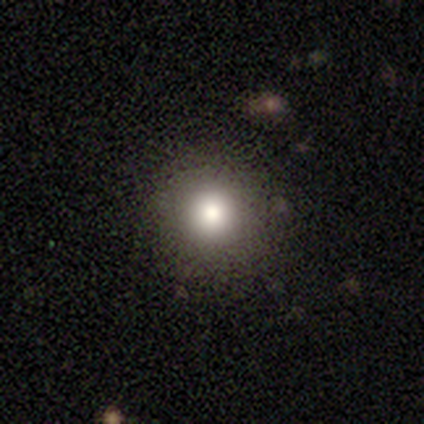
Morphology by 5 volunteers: Smooth or featured?
  - smooth: 100% *
  - featured or disk: 0%
  - star or artifact: 0%
How rounded?
  - round: 80% *
  - cigar-shaped: 20%
  - in between: 0%
Merging?
  - none: 80% *
  - major disturbance: 20%
  - minor disturbance: 0%
  - merger: 0%